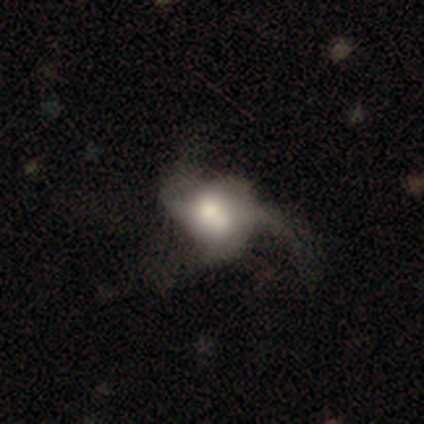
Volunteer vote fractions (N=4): This is clearly a featured or disk galaxy (100%). It is clearly not viewed edge-on (100%). Bar: clearly no (100%). Spiral arm pattern: likely yes (75%). Spiral arm count: clearly 3 (100%). Spiral winding: clearly loose (100%). Central bulge: likely large (75%). Merging: likely major disturbance (75%).